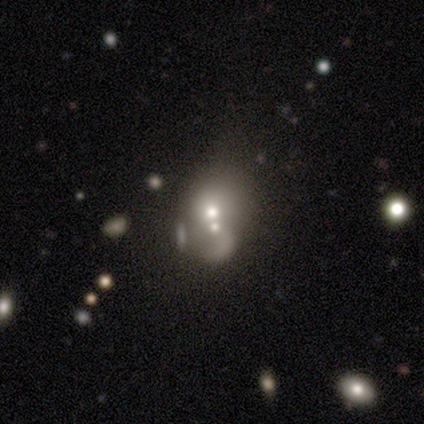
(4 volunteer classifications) smooth 50%, featured or disk 25%, star or artifact 25%. Down the decision tree: how rounded — round (50%, tied with in between); merging — merger (67%).